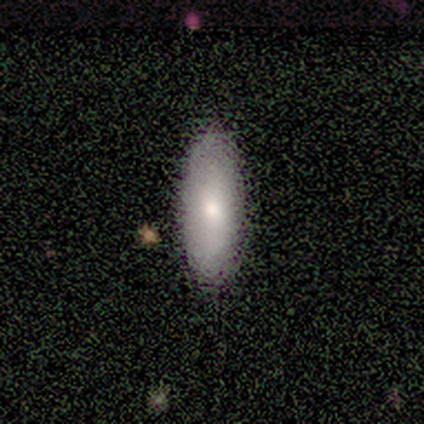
Smooth or featured? smooth (80%)
How rounded? in between (100%)
Merging? none (100%)